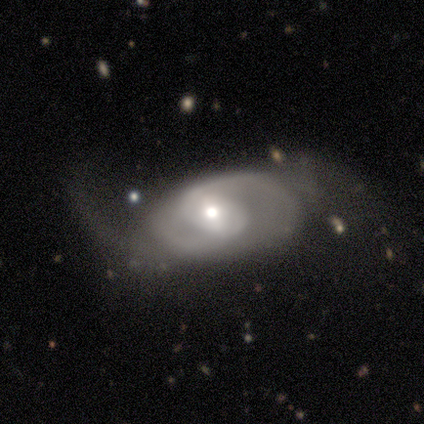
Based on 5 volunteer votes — Volunteers were most divided on "merging" (2-way tie): none: 40%, major disturbance: 40%, merger: 20%, minor disturbance: 0%. More confident: how rounded — in between (67%); smooth or featured — smooth (60%).